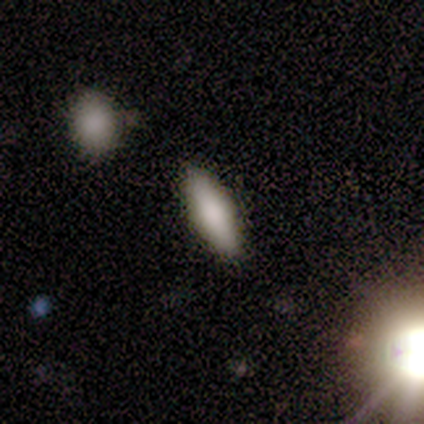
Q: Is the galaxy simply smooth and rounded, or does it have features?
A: smooth — 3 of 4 (75%).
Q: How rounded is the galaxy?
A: in between — 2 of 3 (67%).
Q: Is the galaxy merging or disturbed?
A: none — 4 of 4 (100%).